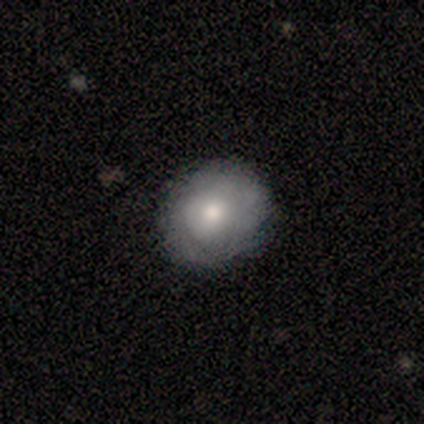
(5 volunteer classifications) Smooth or featured?
  - smooth: 100% *
  - featured or disk: 0%
  - star or artifact: 0%
How rounded?
  - round: 100% *
  - in between: 0%
  - cigar-shaped: 0%
Merging?
  - none: 100% *
  - minor disturbance: 0%
  - major disturbance: 0%
  - merger: 0%